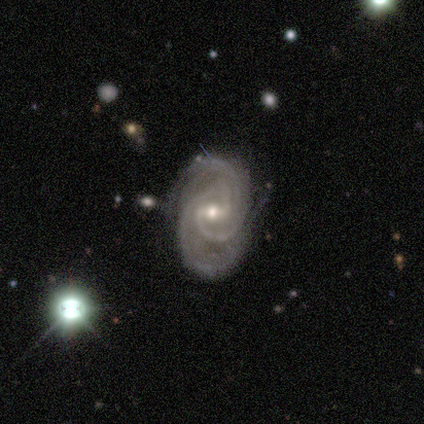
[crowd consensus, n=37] Smooth or featured?
  - featured or disk: 92% *
  - star or artifact: 8%
  - smooth: 0%
Edge-on disk?
  - no: 97% *
  - yes: 3%
Bar?
  - weak: 58% *
  - strong: 21%
  - no: 21%
Spiral arms?
  - yes: 97% *
  - no: 3%
Spiral winding?
  - tight: 59% *
  - medium: 38%
  - loose: 3%
Spiral arm count?
  - 2: 59% *
  - 3: 19%
  - 4: 12%
  - can't tell: 9%
  - 1: 0%
  - more than 4: 0%
Bulge size?
  - moderate: 58% *
  - small: 39%
  - dominant: 3%
  - large: 0%
  - none: 0%
Merging?
  - none: 53% *
  - minor disturbance: 41%
  - major disturbance: 6%
  - merger: 0%